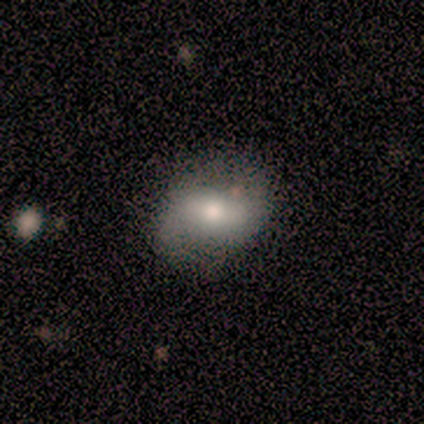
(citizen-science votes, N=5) featured or disk 60%, smooth 40%, star or artifact 0%. Down the decision tree: edge-on disk — no (100%); bar — strong (67%); spiral arms — no (67%); bulge size — large (33%, tied with moderate and small); merging — none (80%).